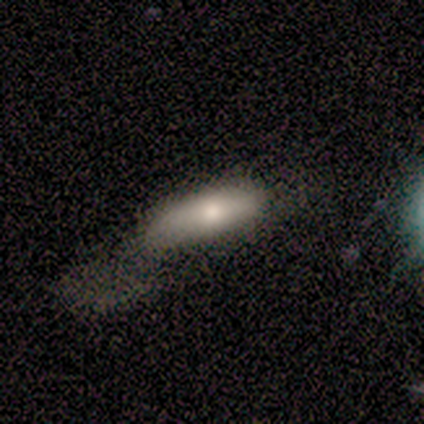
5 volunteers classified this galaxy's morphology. This is clearly a smooth galaxy (80%). How rounded: possibly in between (50%, tied with cigar-shaped). Merging: marginally none (40%, tied with major disturbance).